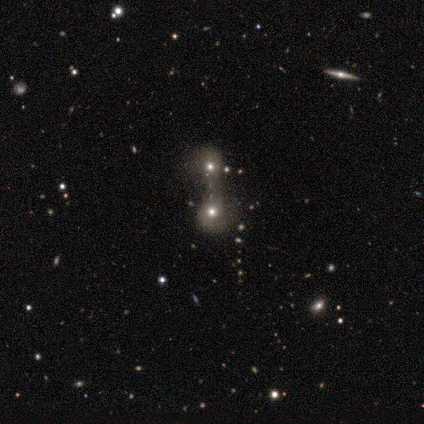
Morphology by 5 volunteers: smooth_or_featured: star or artifact (p=0.60) [alt: smooth p=0.20]